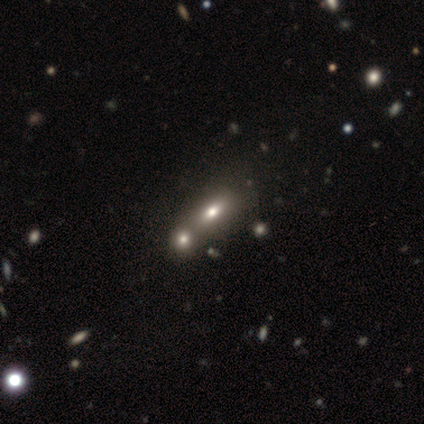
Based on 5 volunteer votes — Volunteers were most divided on "edge-on disk" (2-way tie): yes: 50%, no: 50%. More confident: edge-on bulge — rounded (100%); smooth or featured — featured or disk (80%); merging — merger (60%).